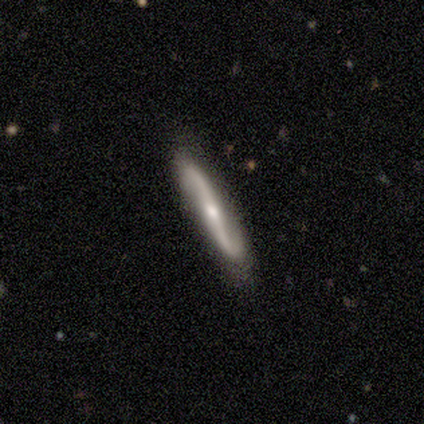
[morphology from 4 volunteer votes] smooth_or_featured: featured or disk (p=0.75) [alt: smooth p=0.25]
disk_edge_on: yes (p=0.67) [alt: no p=0.33]
edge_on_bulge: none (p=0.50) [tied with: rounded p=0.50]
merging: none (p=1.00)